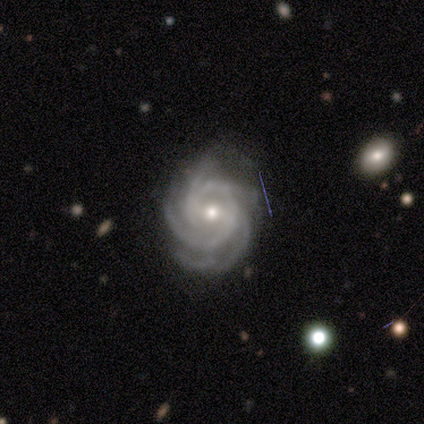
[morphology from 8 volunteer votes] type=featured or disk (75%); edge-on=no (100%); bar=weak (67%); spiral arms=yes (100%); winding=tight (100%); arm count=4 (67%); bulge=moderate (50%, tied with small); merging=none (100%).